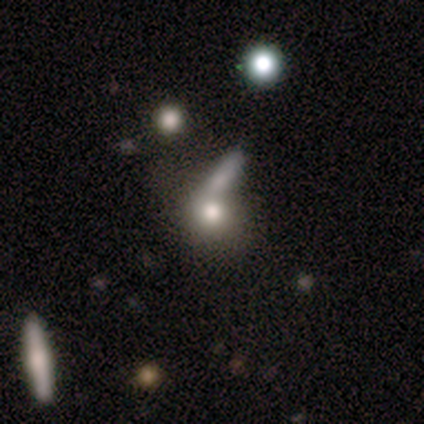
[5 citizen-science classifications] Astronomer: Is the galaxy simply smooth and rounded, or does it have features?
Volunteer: smooth — 80%.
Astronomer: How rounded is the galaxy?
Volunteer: round — 50%, tied with in between at 50%.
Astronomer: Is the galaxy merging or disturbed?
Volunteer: none — 40%, tied with merger at 40%.